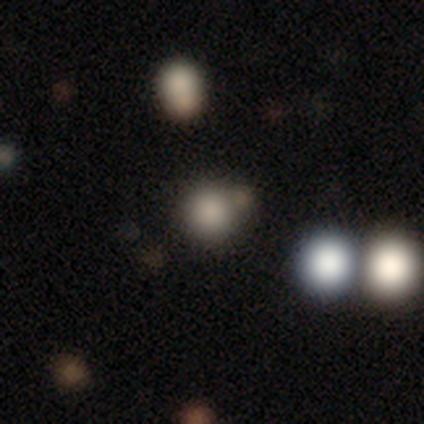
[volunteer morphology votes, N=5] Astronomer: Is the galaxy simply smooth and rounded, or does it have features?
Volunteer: smooth — 100%.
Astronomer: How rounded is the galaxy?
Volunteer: round — 100%.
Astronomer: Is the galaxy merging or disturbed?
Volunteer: none — 80%.